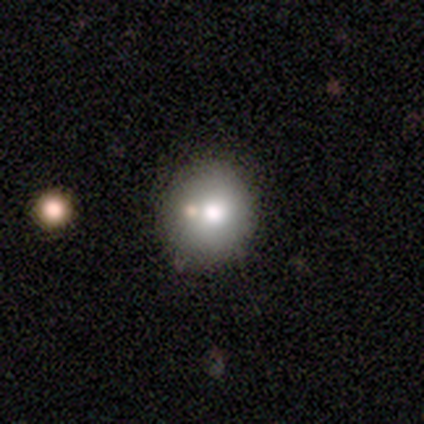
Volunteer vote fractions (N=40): Overall: smooth (90%). How rounded: round (94%). Merging: none (69%).